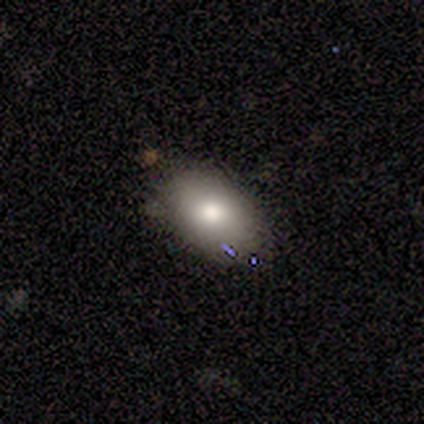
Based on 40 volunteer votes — Q: Smooth or featured?
A: smooth (65%); runner-up: featured or disk (18%)
Q: How rounded?
A: in between (96%); runner-up: round (4%)
Q: Merging?
A: none (70%); runner-up: minor disturbance (30%)